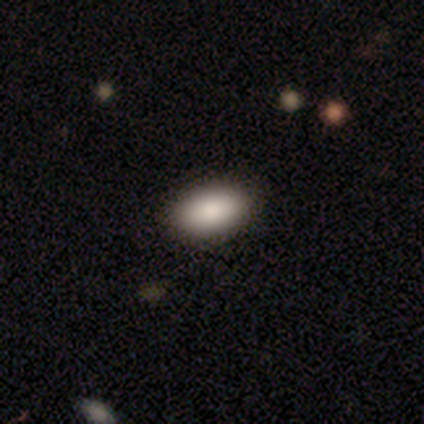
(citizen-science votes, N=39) Smooth or featured? 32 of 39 (82%) said smooth. How rounded? 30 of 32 (94%) said in between. Merging? 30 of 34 (88%) said none.